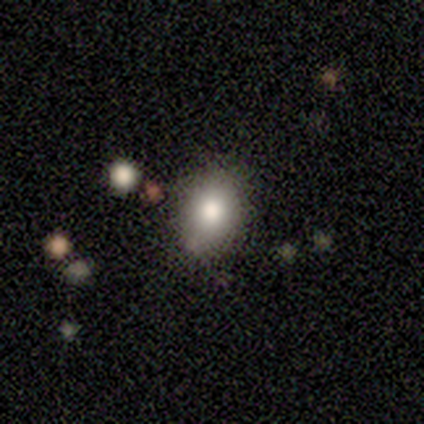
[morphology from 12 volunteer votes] A smooth galaxy with no disk features (58%) that is in between round and cigar-shaped (71%).

Vote fractions:
- Smooth or featured? smooth: 58% / featured or disk: 33% / star or artifact: 8%
- How rounded? in between: 71% / round: 29% / cigar-shaped: 0%
- Merging? none: 64% / minor disturbance: 27% / merger: 9% / major disturbance: 0%